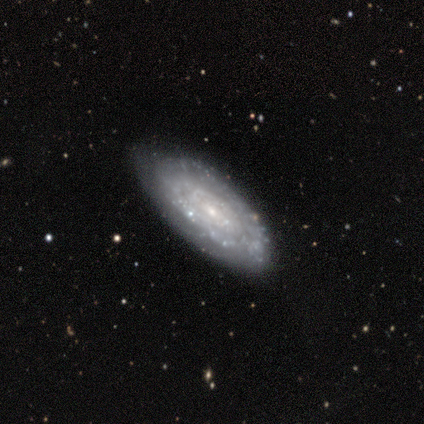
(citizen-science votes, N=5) featured or disk 80%, star or artifact 20%, smooth 0%. Down the decision tree: edge-on disk — no (75%); bar — weak (67%); spiral arms — yes (67%); spiral arm count — 3 (50%, tied with can't tell); spiral winding — tight (100%); bulge size — small (67%); merging — none (75%).